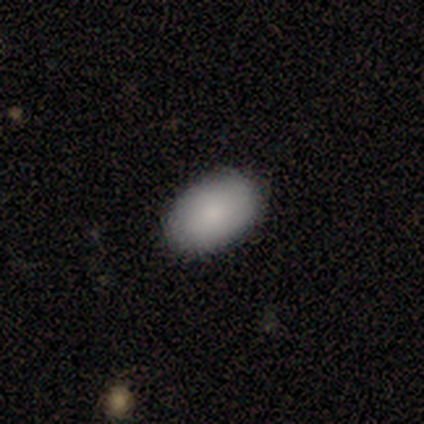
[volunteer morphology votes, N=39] A smooth galaxy with no disk features (90%) that is in between round and cigar-shaped (91%).

Vote fractions:
- Smooth or featured? smooth: 90% / star or artifact: 8% / featured or disk: 3%
- How rounded? in between: 91% / round: 9% / cigar-shaped: 0%
- Merging? none: 94% / minor disturbance: 3% / major disturbance: 3% / merger: 0%